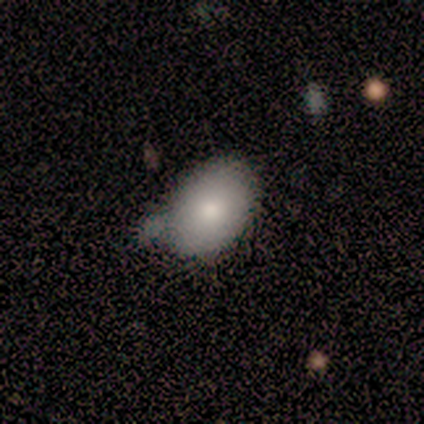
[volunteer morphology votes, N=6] Q: Smooth or featured?
A: smooth (50%); runner-up: star or artifact (33%)
Q: How rounded?
A: in between (100%)
Q: Merging?
A: none (50%); runner-up: minor disturbance (25%)